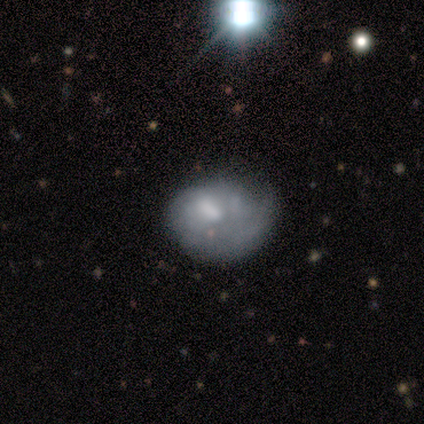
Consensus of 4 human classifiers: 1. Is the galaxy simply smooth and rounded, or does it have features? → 50% smooth (tied), 50% featured or disk (tied), 0% star or artifact.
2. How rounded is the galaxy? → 50% round (tied), 50% in between (tied), 0% cigar-shaped.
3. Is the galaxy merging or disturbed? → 50% major disturbance, 25% minor disturbance, 25% merger, 0% none.